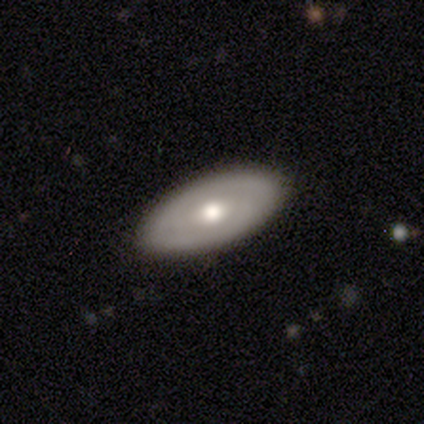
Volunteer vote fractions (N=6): Smooth or featured? featured or disk (67%)
Edge-on disk? no (75%)
Bar? no (100%)
Spiral arms? yes (67%)
Spiral winding? tight (50%, tied with medium)
Spiral arm count? 2 (50%, tied with can't tell)
Bulge size? small (67%)
Merging? none (100%)